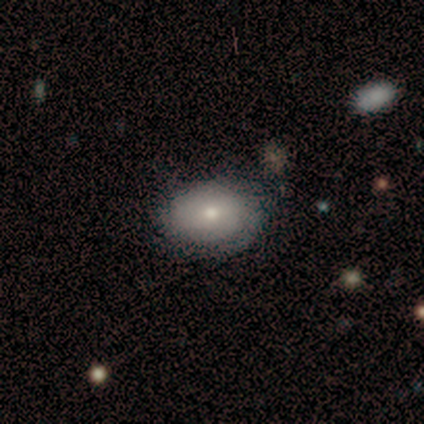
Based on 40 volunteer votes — A smooth galaxy with no disk features (68%) that is in between round and cigar-shaped (63%).

Vote fractions:
- Smooth or featured? smooth: 68% / featured or disk: 30% / star or artifact: 2%
- How rounded? in between: 63% / round: 37% / cigar-shaped: 0%
- Merging? none: 82% / minor disturbance: 10% / major disturbance: 5% / merger: 3%